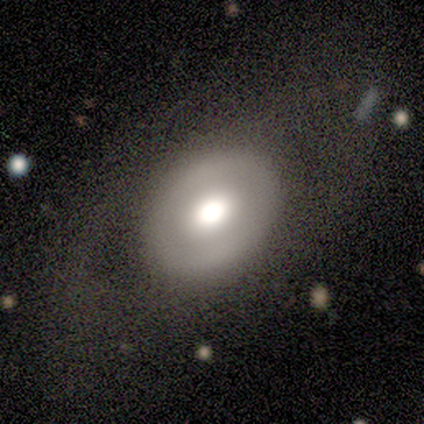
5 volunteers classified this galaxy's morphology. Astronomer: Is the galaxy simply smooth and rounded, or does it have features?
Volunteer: featured or disk — 60% (runner-up: smooth, 40%).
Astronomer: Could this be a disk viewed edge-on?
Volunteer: no — 67%.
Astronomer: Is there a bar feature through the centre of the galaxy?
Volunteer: no — 100%.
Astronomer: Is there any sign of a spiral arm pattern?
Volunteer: no — 100%.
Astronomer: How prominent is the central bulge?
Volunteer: dominant — 50%, tied with large at 50%.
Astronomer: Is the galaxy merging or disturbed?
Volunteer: none — 80%.